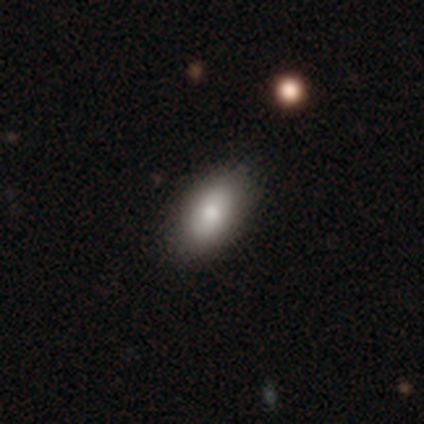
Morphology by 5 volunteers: Smooth or featured?
  - smooth: 80% *
  - star or artifact: 20%
  - featured or disk: 0%
How rounded?
  - in between: 100% *
  - round: 0%
  - cigar-shaped: 0%
Merging?
  - none: 75% *
  - minor disturbance: 25%
  - major disturbance: 0%
  - merger: 0%